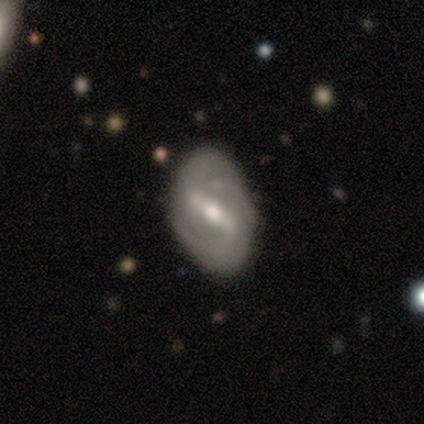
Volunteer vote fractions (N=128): This is clearly a featured or disk galaxy (84%). It is clearly not viewed edge-on (94%). Bar: likely strong (77%). Spiral arm pattern: likely yes (78%). Spiral arm count: likely 2 (71%). Spiral winding: marginally medium (42%). Central bulge: likely moderate (70%). Merging: clearly none (82%).